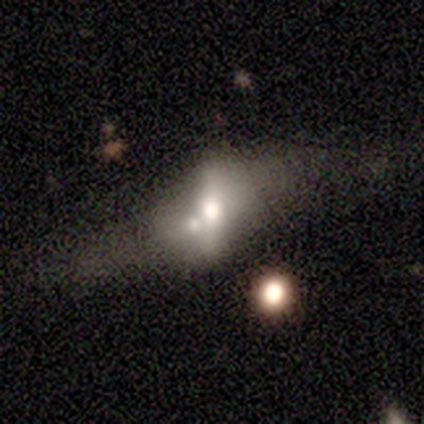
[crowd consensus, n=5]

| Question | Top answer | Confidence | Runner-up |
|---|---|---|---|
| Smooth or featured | featured or disk | 60% | smooth (40%) |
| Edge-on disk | no | 67% | yes (33%) |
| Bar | strong | 50% | tied: weak (50%) |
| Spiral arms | no | 100% | — |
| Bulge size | moderate | 100% | — |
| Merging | merger | 80% | none (20%) |